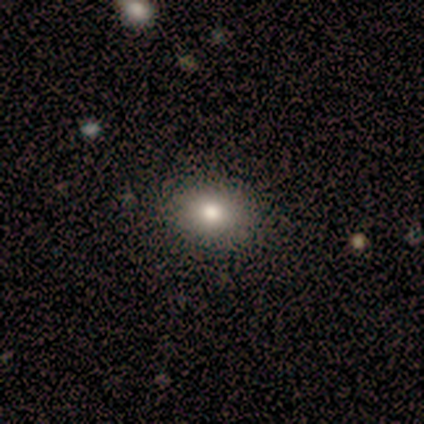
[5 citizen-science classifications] A smooth galaxy with no disk features (60%) that is in between round and cigar-shaped (67%). Merging: none (80%).